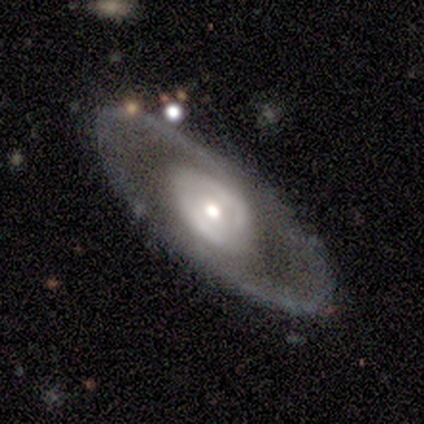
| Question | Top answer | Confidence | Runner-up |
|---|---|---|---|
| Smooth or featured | featured or disk | 80% | smooth (20%) |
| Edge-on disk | no | 100% | — |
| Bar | no | 75% | weak (25%) |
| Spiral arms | no | 75% | yes (25%) |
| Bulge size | moderate | 50% | tied: small (50%) |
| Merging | none | 80% | minor disturbance (20%) |